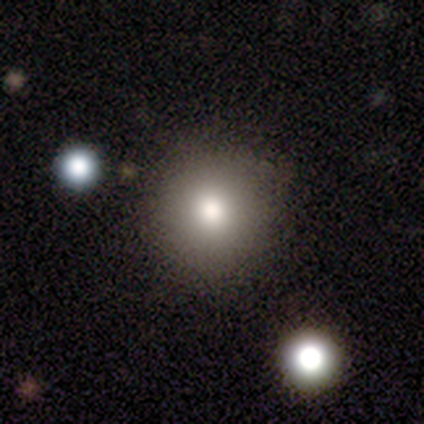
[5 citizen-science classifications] Q: Smooth or featured?
A: smooth (100%)
Q: How rounded?
A: round (100%)
Q: Merging?
A: none (100%)